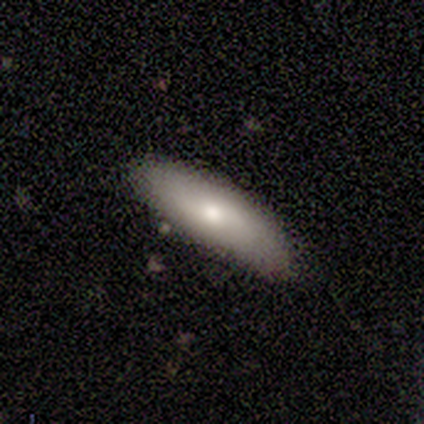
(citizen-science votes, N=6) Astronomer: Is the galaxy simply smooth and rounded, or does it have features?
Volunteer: smooth — 50%, tied with featured or disk at 50%.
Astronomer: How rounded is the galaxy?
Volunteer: in between — 100%.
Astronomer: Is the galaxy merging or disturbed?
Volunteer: minor disturbance — 50%.